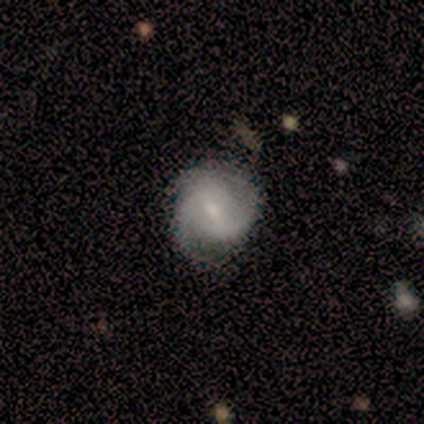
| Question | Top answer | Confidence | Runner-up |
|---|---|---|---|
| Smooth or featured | featured or disk | 100% | — |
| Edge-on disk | no | 100% | — |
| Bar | weak | 100% | — |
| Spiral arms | yes | 100% | — |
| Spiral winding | medium | 60% | loose (40%) |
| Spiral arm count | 3 | 60% | 2 (40%) |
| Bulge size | small | 60% | moderate (20%) |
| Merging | none | 100% | — |